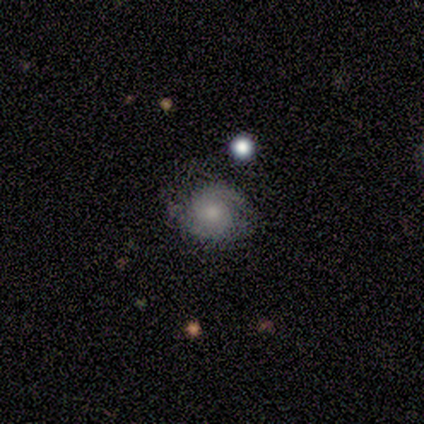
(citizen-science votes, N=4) smooth_or_featured: featured or disk (p=0.50) [alt: smooth p=0.25]
disk_edge_on: no (p=1.00)
bar: weak (p=0.50) [tied with: no p=0.50]
has_spiral_arms: yes (p=1.00)
spiral_winding: medium (p=1.00)
spiral_arm_count: 1 (p=0.50) [tied with: 2 p=0.50]
bulge_size: moderate (p=0.50) [tied with: small p=0.50]
merging: minor disturbance (p=1.00)